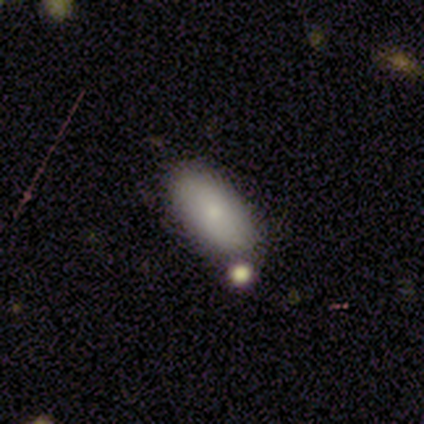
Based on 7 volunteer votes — A smooth galaxy with no disk features (100%) that is in between round and cigar-shaped (100%).

Vote fractions:
- Smooth or featured? smooth: 100% / featured or disk: 0% / star or artifact: 0%
- How rounded? in between: 100% / round: 0% / cigar-shaped: 0%
- Merging? none: 86% / major disturbance: 14% / minor disturbance: 0% / merger: 0%